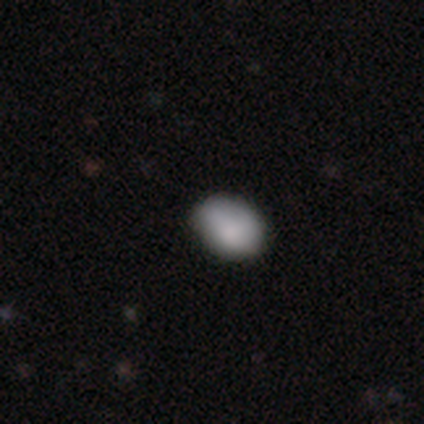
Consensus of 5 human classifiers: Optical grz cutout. It shows a smooth galaxy with no disk features (100%) that is in between round and cigar-shaped (80%). Merging: none (60%).